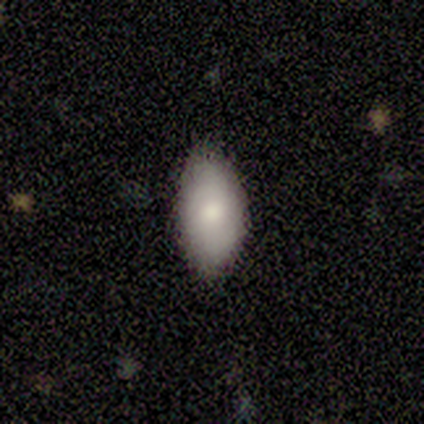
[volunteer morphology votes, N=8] Overall: smooth (62%; featured or disk 38%). How rounded: in between (80%). Merging: none (75%).